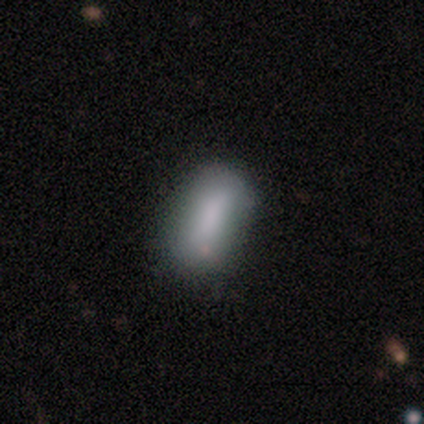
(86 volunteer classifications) This is likely a smooth galaxy (76%). How rounded: clearly in between (83%). Merging: likely none (68%).